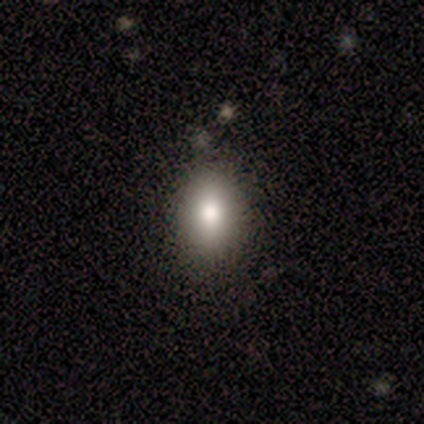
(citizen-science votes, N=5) smooth-or-featured: smooth: 80% | featured or disk: 20% | star or artifact: 0%
  how-rounded: in between: 75% | round: 25% | cigar-shaped: 0%
  merging: none: 100% | minor disturbance: 0% | major disturbance: 0% | merger: 0%